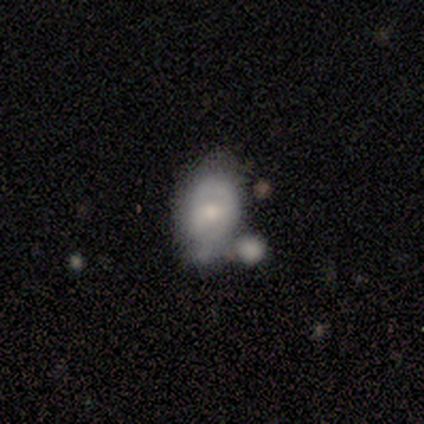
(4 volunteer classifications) Morphology: type=smooth (50%, tied with featured or disk); roundness=in between (50%, tied with cigar-shaped); merging=minor disturbance (75%).